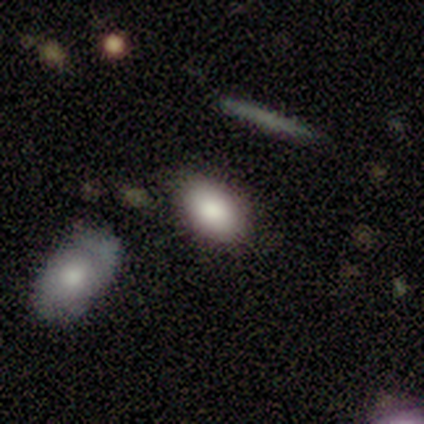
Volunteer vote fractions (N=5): Smooth or featured? smooth (60%)
How rounded? in between (67%)
Merging? none (80%)